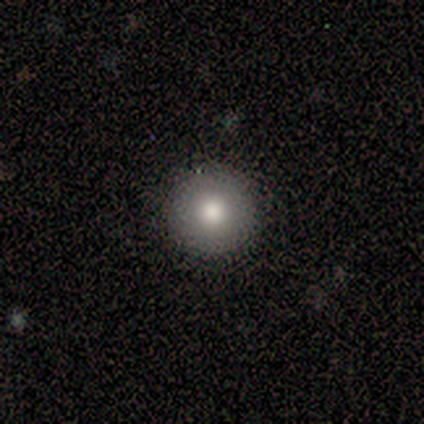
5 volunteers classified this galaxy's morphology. smooth_or_featured: featured or disk (p=0.60) [alt: smooth p=0.40]
disk_edge_on: no (p=0.67) [alt: yes p=0.33]
bar: strong (p=0.50) [tied with: no p=0.50]
has_spiral_arms: no (p=1.00)
bulge_size: large (p=0.50) [tied with: moderate p=0.50]
merging: none (p=1.00)